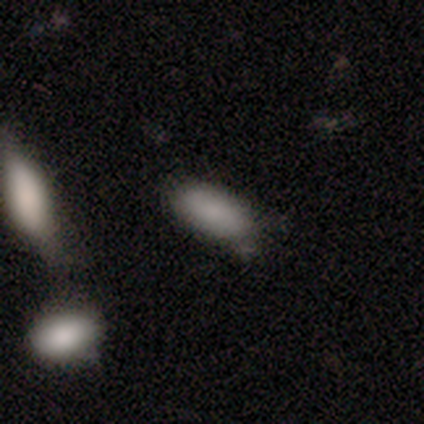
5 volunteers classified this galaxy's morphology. Overall: smooth (80%). How rounded: in between (75%). Merging: none (50%, tied with major disturbance).